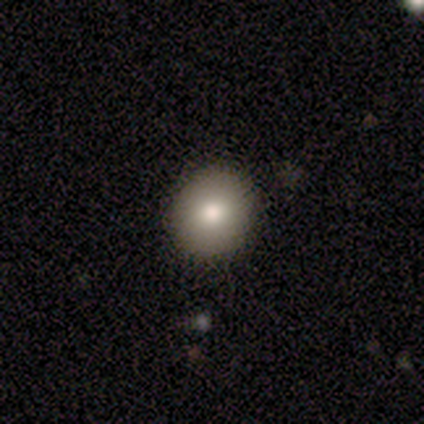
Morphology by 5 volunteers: This appears to be a smooth galaxy with no disk features (80%) that is round (100%). Merging: none (100%).